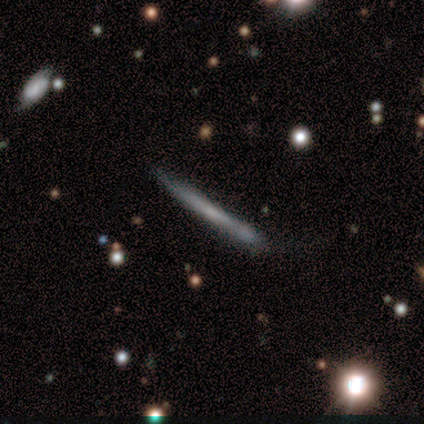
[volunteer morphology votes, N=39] A featured or disk galaxy (54%) viewed edge-on (100%) with no central bulge (81%). Merging: none (78%).